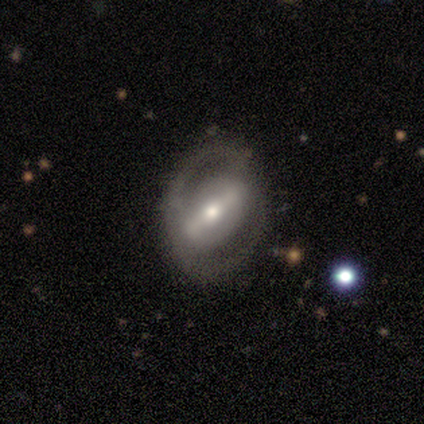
Smooth or featured? featured or disk (100%)
Edge-on disk? no (75%)
Bar? weak (67%)
Spiral arms? yes (67%)
Spiral winding? medium (50%, tied with loose)
Spiral arm count? 2 (100%)
Bulge size? small (67%)
Merging? none (75%)